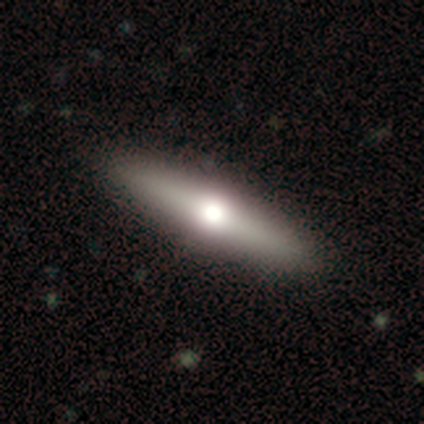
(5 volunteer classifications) smooth-or-featured: featured or disk: 80% | smooth: 20% | star or artifact: 0%
  disk-edge-on: yes: 100% | no: 0%
    edge-on-bulge: rounded: 75% | boxy: 25% | none: 0%
  merging: none: 80% | minor disturbance: 20% | major disturbance: 0% | merger: 0%